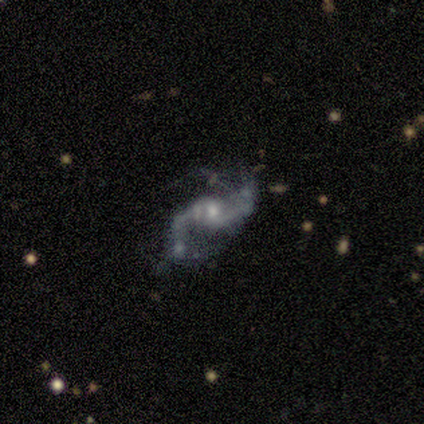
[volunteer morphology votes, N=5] This appears to be a featured or disk galaxy (100%) with a weak bar (40%, tied with no), 2 (80%) loose (100%) spiral arms (100%) and a moderate central bulge (60%). Merging: none (60%).